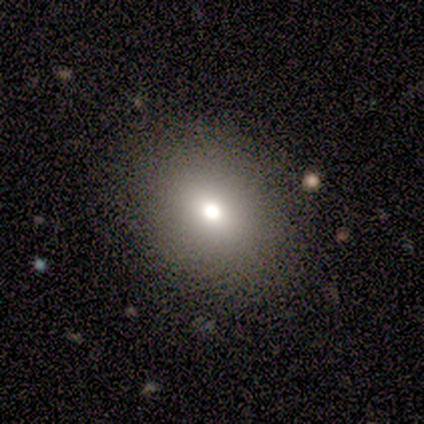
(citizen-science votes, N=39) This is possibly a smooth galaxy (59%). How rounded: possibly round (57%). Merging: clearly none (91%).